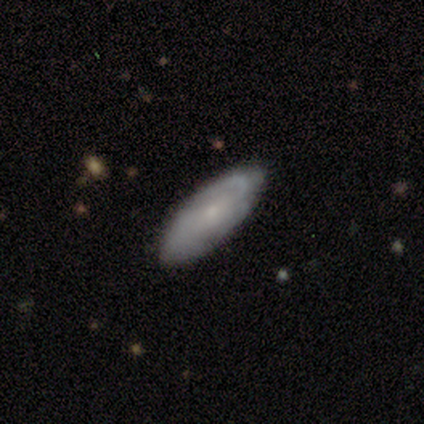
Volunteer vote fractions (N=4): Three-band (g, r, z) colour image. It shows a featured or disk galaxy (75%) with a weak bar (67%), 2 (100%) medium (67%) spiral arms (100%) and a small central bulge (100%). Merging: none (100%).